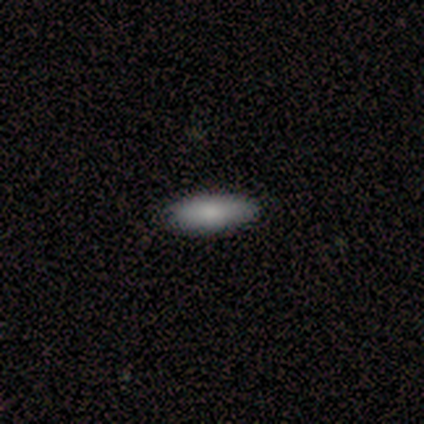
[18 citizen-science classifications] Morphology: type=smooth (89%); roundness=in between (81%); merging=none (89%).